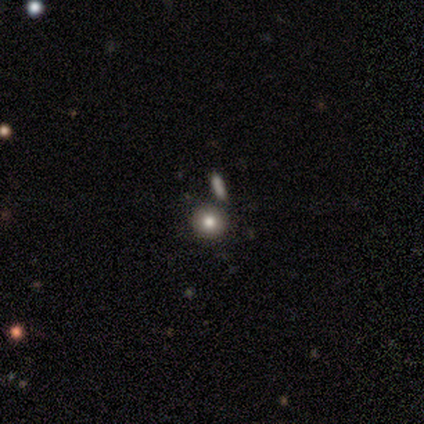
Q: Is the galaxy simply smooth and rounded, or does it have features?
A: smooth — 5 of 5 (100%).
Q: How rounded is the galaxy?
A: round — 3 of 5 (60%).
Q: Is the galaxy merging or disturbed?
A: none — 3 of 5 (60%).